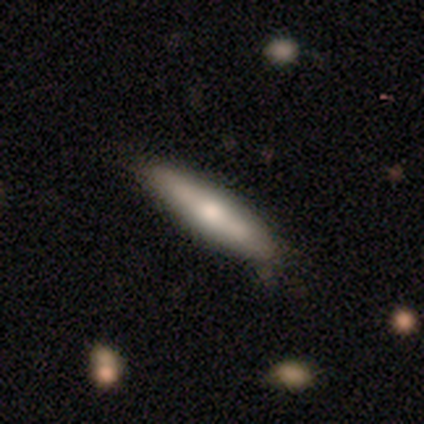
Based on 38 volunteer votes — Morphology: type=smooth (53%); roundness=cigar-shaped (70%); merging=none (61%).